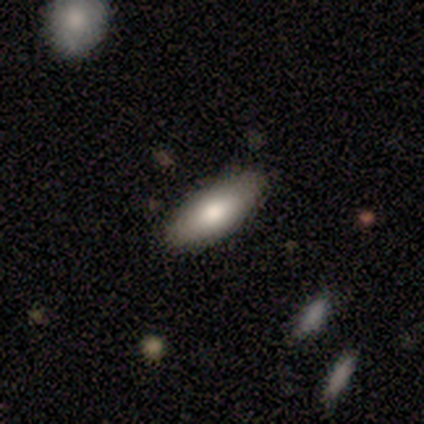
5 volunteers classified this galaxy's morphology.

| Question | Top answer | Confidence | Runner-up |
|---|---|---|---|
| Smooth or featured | smooth | 80% | featured or disk (20%) |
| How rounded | in between | 75% | cigar-shaped (25%) |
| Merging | none | 100% | — |